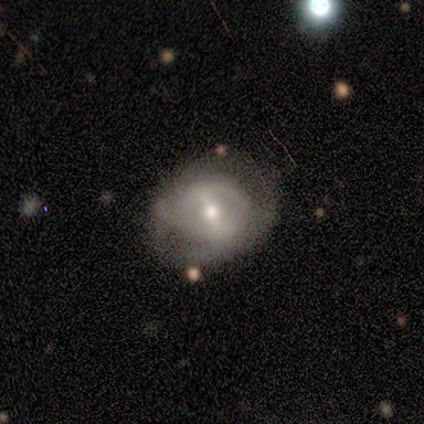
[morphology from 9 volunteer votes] A featured or disk galaxy (100%) with a weak bar (56%), 2 (50%) medium (50%) spiral arms (67%) and a moderate central bulge (56%).

Vote fractions:
- Smooth or featured? featured or disk: 100% / smooth: 0% / star or artifact: 0%
- Edge-on disk? no: 100% / yes: 0%
- Bar? weak: 56% / strong: 22% / no: 22%
- Spiral arms? yes: 67% / no: 33%
- Spiral winding? medium: 50% / tight: 33% / loose: 17%
- Spiral arm count? 2: 50% / can't tell: 33% / 4: 17% / 1: 0% / 3: 0% / more than 4: 0%
- Bulge size? moderate: 56% / small: 44% / dominant: 0% / large: 0% / none: 0%
- Merging? none: 67% / minor disturbance: 33% / major disturbance: 0% / merger: 0%